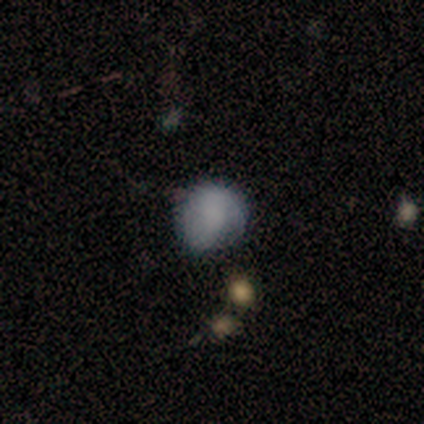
smooth_or_featured: smooth (p=1.00)
how_rounded: round (p=0.60) [alt: in between p=0.40]
merging: minor disturbance (p=0.60) [alt: none p=0.40]